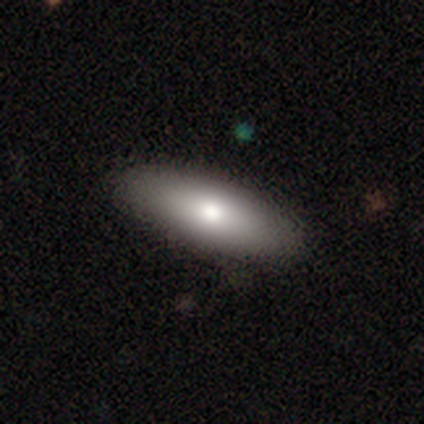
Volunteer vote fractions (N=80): A smooth galaxy with no disk features (84%) that is in between round and cigar-shaped (64%). Merging: none (57%).